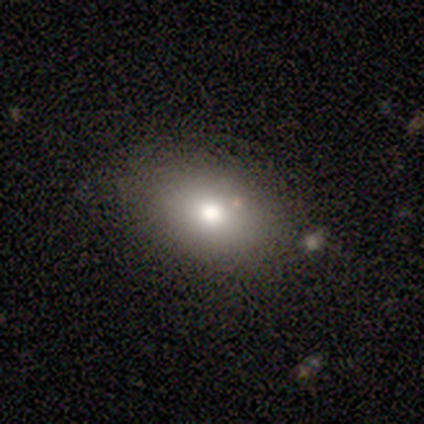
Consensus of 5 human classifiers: Volunteers were most divided on "bulge size" (2-way tie): large: 50%, moderate: 50%, dominant: 0%, small: 0%, none: 0%. More confident: bar — no (100%); spiral arms — no (100%); edge-on disk — no (67%); smooth or featured — featured or disk (60%); merging — none (60%).